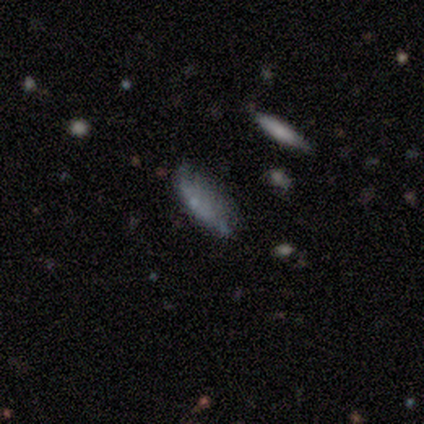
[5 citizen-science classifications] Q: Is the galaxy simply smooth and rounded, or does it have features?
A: smooth — 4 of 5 (80%).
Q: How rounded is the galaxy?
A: cigar-shaped — 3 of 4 (75%).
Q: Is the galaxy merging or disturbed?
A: none — 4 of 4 (100%).